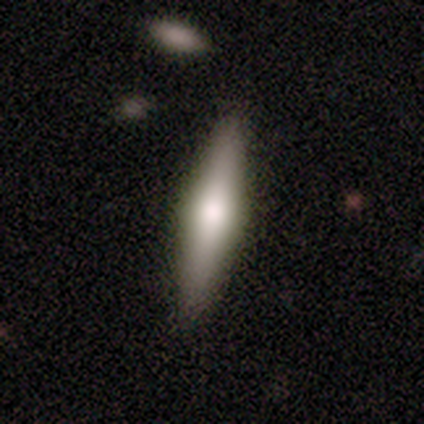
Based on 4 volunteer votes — Morphology: type=smooth (50%, tied with featured or disk); roundness=in between (50%, tied with cigar-shaped); merging=none (75%).